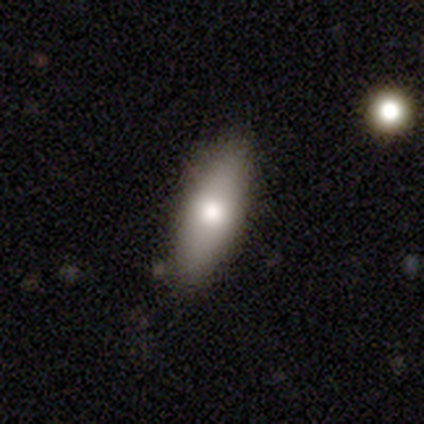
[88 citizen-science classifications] Volunteers were most divided on "how rounded": in between: 63%, cigar-shaped: 37%, round: 0%. More confident: merging — none (84%); smooth or featured — smooth (68%).